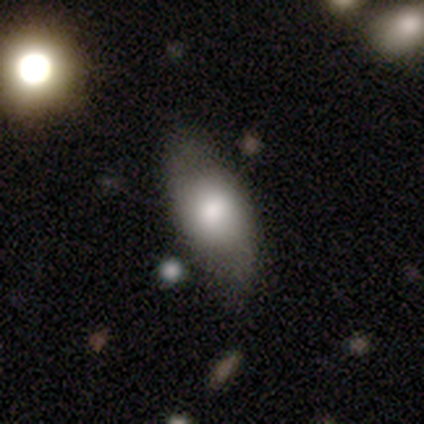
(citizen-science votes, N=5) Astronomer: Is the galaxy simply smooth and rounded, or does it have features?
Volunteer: smooth — 60%.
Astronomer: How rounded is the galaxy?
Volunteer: in between — 100%.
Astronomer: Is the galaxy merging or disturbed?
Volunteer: none — 75%.